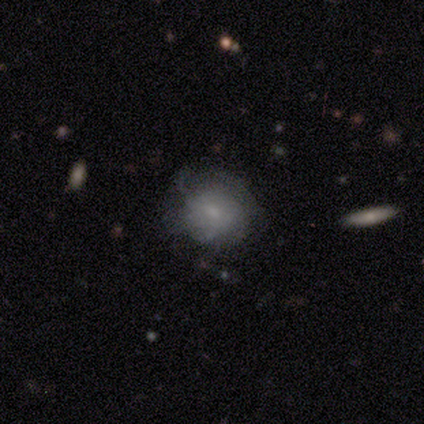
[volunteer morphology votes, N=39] Volunteers were most divided on "bar": no: 53%, weak: 47%, strong: 0%. Remaining: edge-on disk — no (89%); spiral winding — tight (78%); bulge size — small (71%); merging — none (63%); spiral arm count — can't tell (56%); spiral arms — yes (53%); smooth or featured — featured or disk (49%).